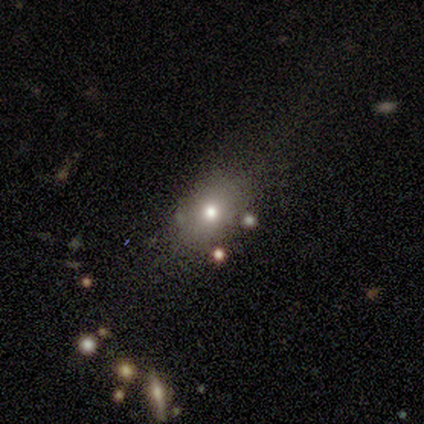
Q: Smooth or featured?
A: featured or disk (67%); runner-up: smooth (33%)
Q: Edge-on disk?
A: no (100%)
Q: Bar?
A: no (100%)
Q: Spiral arms?
A: no (100%)
Q: Bulge size?
A: moderate (50%); tied with: small (50%)
Q: Merging?
A: none (33%); tied with: minor disturbance (33%); merger (33%)